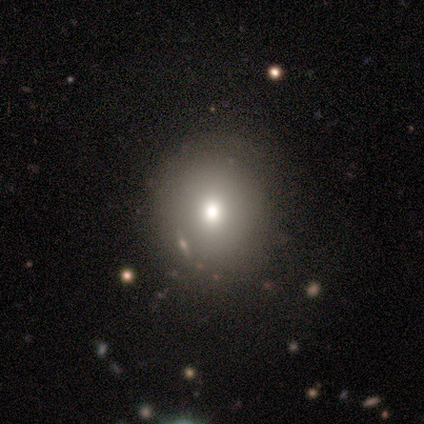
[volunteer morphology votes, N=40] A smooth galaxy with no disk features (72%) that is round (69%). Merging: none (79%).